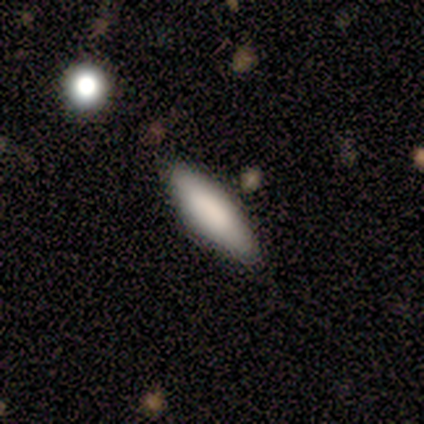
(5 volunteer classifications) A smooth galaxy with no disk features (100%) that is cigar-shaped (60%).

Vote fractions:
- Smooth or featured? smooth: 100% / featured or disk: 0% / star or artifact: 0%
- How rounded? cigar-shaped: 60% / in between: 40% / round: 0%
- Merging? none: 100% / minor disturbance: 0% / major disturbance: 0% / merger: 0%